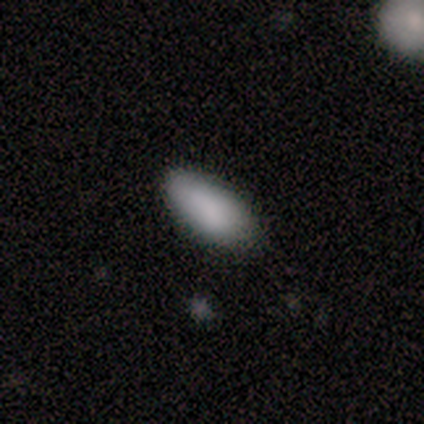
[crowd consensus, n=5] smooth-or-featured: smooth: 100% | featured or disk: 0% | star or artifact: 0%
  how-rounded: in between: 100% | round: 0% | cigar-shaped: 0%
  merging: none: 60% | minor disturbance: 40% | major disturbance: 0% | merger: 0%